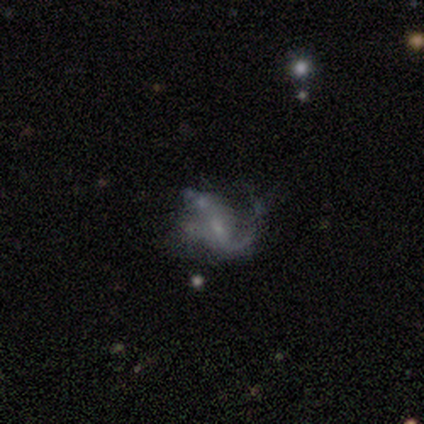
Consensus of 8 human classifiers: Smooth or featured?
  - featured or disk: 75% *
  - smooth: 12%
  - star or artifact: 12%
Edge-on disk?
  - no: 100% *
  - yes: 0%
Bar?
  - no: 50% *
  - weak: 33%
  - strong: 17%
Spiral arms?
  - yes: 83% *
  - no: 17%
Spiral winding?
  - medium: 60% *
  - loose: 40%
  - tight: 0%
Spiral arm count?
  - 2: 80% *
  - 1: 20%
  - 3: 0%
  - 4: 0%
  - more than 4: 0%
  - can't tell: 0%
Bulge size?
  - small: 67% *
  - moderate: 17%
  - none: 17%
  - dominant: 0%
  - large: 0%
Merging?
  - minor disturbance: 57% *
  - major disturbance: 43%
  - none: 0%
  - merger: 0%